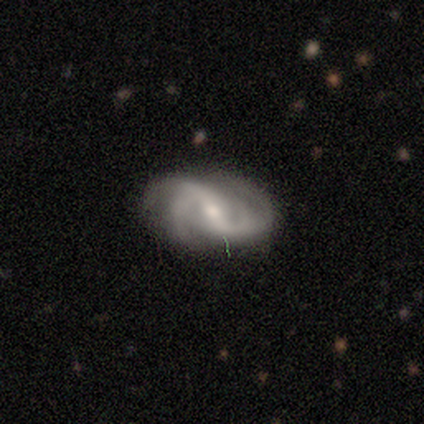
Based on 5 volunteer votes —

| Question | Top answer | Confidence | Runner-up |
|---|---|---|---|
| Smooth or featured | featured or disk | 80% | star or artifact (20%) |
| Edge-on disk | no | 100% | — |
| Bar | strong | 50% | tied: weak (50%) |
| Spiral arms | yes | 100% | — |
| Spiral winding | tight | 50% | medium (25%) |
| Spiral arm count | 2 | 50% | 4 (25%) |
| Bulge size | moderate | 75% | small (25%) |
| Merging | none | 50% | tied: major disturbance (50%) |